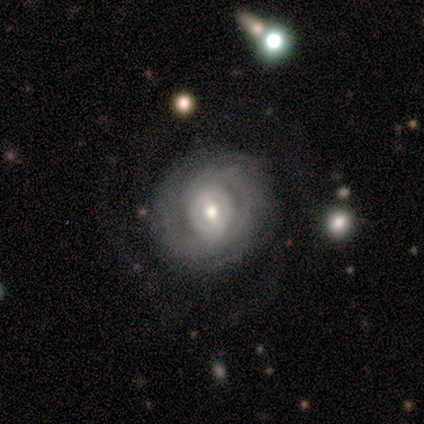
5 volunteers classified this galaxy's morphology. A featured or disk galaxy (60%) with a weak bar (50%, tied with no), 2 (50%, tied with can't tell) tight (100%) spiral arms (100%) and a moderate central bulge (100%). Merging: none (100%).